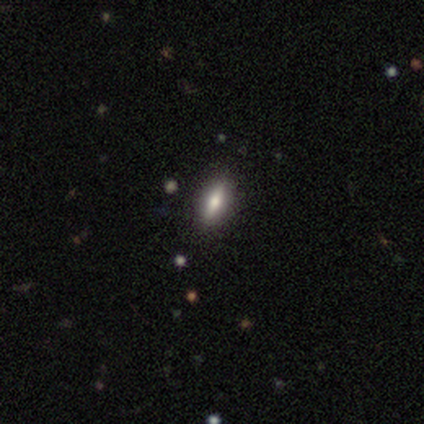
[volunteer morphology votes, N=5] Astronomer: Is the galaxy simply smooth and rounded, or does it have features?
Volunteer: smooth — 80%.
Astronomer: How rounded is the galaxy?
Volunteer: in between — 75%.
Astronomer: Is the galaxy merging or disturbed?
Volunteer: none — 75%.